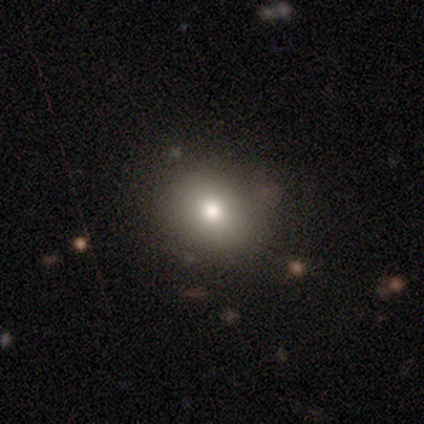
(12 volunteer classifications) smooth-or-featured: smooth: 92% | star or artifact: 8% | featured or disk: 0%
  how-rounded: round: 45% (tied) | in between: 45% (tied) | cigar-shaped: 9%
  merging: none: 64% | minor disturbance: 18% | major disturbance: 9% | merger: 9%